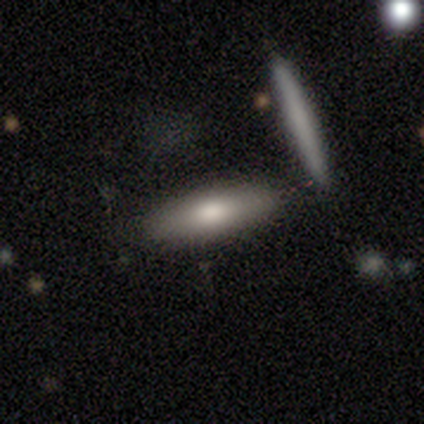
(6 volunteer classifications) Smooth or featured? smooth (83%)
How rounded? cigar-shaped (100%)
Merging? none (67%)